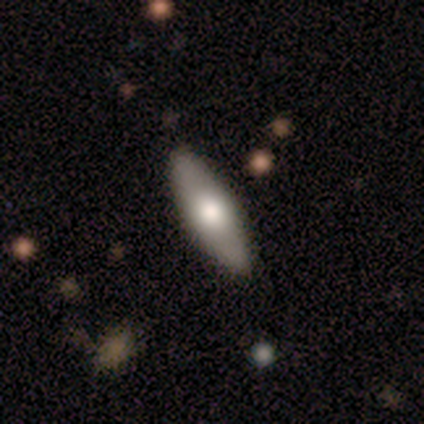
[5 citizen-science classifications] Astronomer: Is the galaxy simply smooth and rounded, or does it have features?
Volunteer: featured or disk — 60% (runner-up: smooth, 40%).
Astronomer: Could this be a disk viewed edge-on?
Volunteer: no — 67%.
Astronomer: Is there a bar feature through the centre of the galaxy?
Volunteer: strong — 50%, tied with no at 50%.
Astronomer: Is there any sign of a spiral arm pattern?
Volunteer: no — 100%.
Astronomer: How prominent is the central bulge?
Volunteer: small — 100%.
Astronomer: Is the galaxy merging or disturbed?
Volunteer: none — 100%.